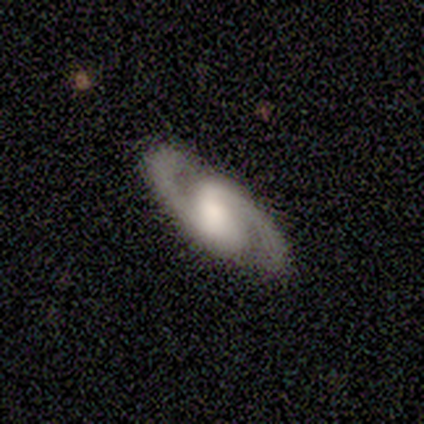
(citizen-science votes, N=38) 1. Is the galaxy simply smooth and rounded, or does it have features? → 92% featured or disk, 8% smooth, 0% star or artifact.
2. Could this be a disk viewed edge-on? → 97% no, 3% yes.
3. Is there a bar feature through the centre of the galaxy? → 47% weak, 38% strong, 15% no.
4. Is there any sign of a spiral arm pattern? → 100% yes, 0% no.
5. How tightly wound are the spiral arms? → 62% medium, 21% tight, 18% loose.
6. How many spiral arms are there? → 100% 2, 0% 1, 0% 3, 0% 4, 0% more than 4, 0% can't tell.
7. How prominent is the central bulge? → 32% moderate, 26% large, 24% none, 15% small, 3% dominant.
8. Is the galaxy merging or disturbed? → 87% none, 13% minor disturbance, 0% major disturbance, 0% merger.